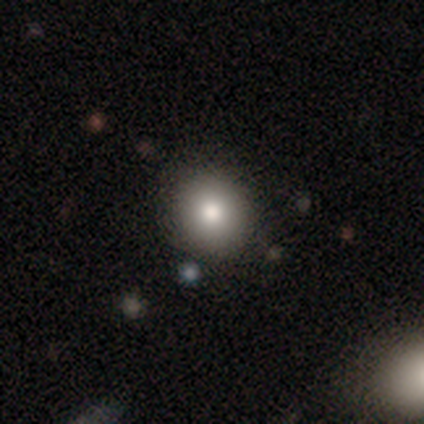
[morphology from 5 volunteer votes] Overall: smooth (100%). How rounded: round (60%; in between 40%). Merging: none (80%).